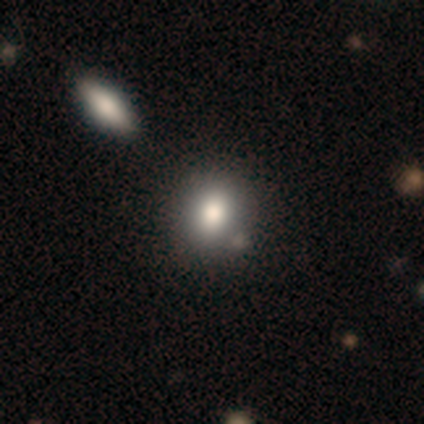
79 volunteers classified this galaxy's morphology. This is likely a smooth galaxy (80%). How rounded: likely round (76%). Merging: marginally none (42%).